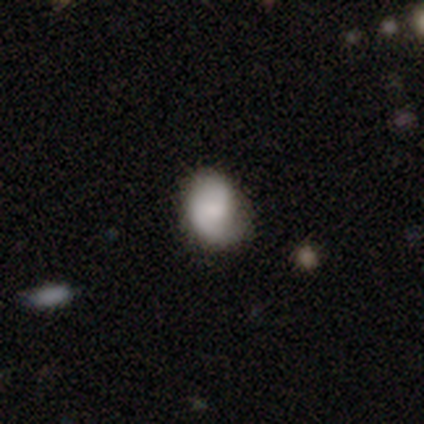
This appears to be a smooth galaxy with no disk features (54%) that is round (50%, tied with in between). Merging: none (66%).